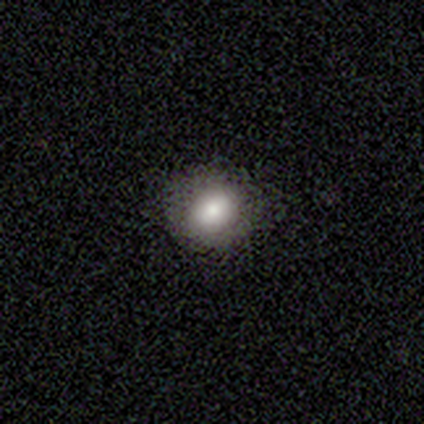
Smooth or featured? 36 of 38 (95%) said smooth. How rounded? 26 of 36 (72%) said round. Merging? 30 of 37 (81%) said none.